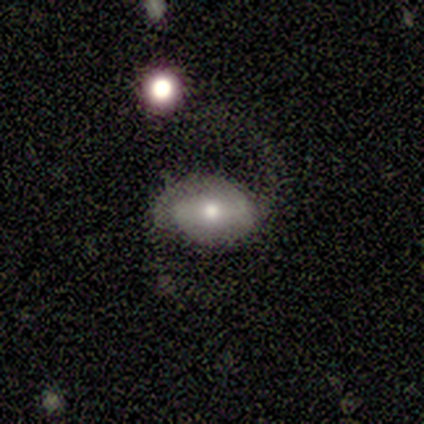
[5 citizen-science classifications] A featured or disk galaxy (80%) with no bar (100%), 2 (100%) medium (50%, tied with loose) spiral arms (67%) and a moderate central bulge (67%).

Vote fractions:
- Smooth or featured? featured or disk: 80% / smooth: 20% / star or artifact: 0%
- Edge-on disk? no: 75% / yes: 25%
- Bar? no: 100% / strong: 0% / weak: 0%
- Spiral arms? yes: 67% / no: 33%
- Spiral winding? medium: 50% (tied) / loose: 50% (tied) / tight: 0%
- Spiral arm count? 2: 100% / 1: 0% / 3: 0% / 4: 0% / more than 4: 0% / can't tell: 0%
- Bulge size? moderate: 67% / small: 33% / dominant: 0% / large: 0% / none: 0%
- Merging? none: 40% (tied) / major disturbance: 40% (tied) / minor disturbance: 20% / merger: 0%